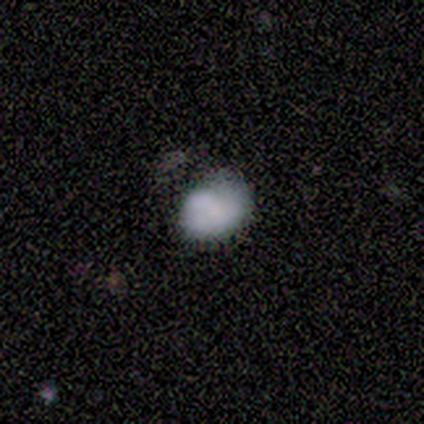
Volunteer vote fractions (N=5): smooth_or_featured: featured or disk (p=0.60) [alt: smooth p=0.20]
disk_edge_on: no (p=1.00)
bar: no (p=0.67) [alt: weak p=0.33]
has_spiral_arms: no (p=0.67) [alt: yes p=0.33]
bulge_size: dominant (p=0.33) [tied with: large p=0.33, none p=0.33]
merging: minor disturbance (p=0.50) [alt: none p=0.25]